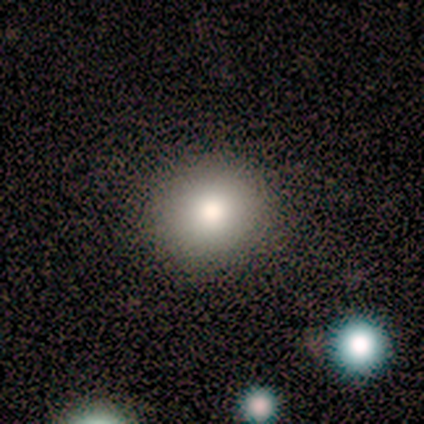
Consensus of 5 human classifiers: smooth 80%, star or artifact 20%, featured or disk 0%. Down the decision tree: how rounded — round (100%); merging — none (100%).